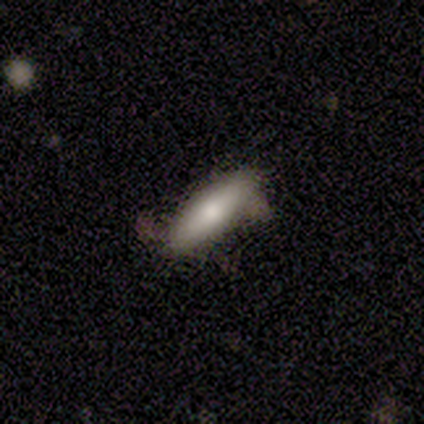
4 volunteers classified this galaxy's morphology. Q: Smooth or featured?
A: smooth (50%); tied with: featured or disk (50%)
Q: How rounded?
A: in between (50%); tied with: cigar-shaped (50%)
Q: Merging?
A: minor disturbance (75%); runner-up: major disturbance (25%)